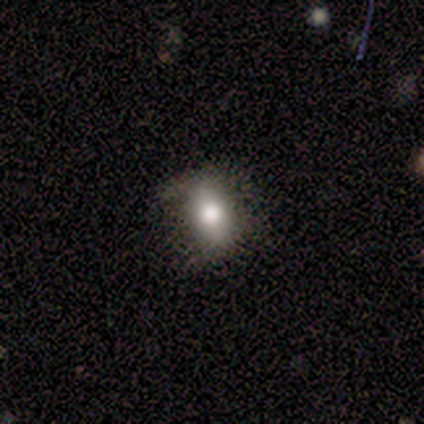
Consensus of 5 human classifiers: smooth 80%, featured or disk 20%, star or artifact 0%. Down the decision tree: how rounded — in between (50%); merging — none (60%).